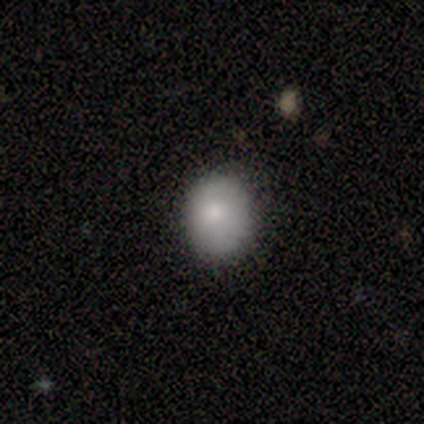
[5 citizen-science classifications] This is clearly a smooth galaxy (100%). How rounded: clearly in between (80%). Merging: clearly none (100%).